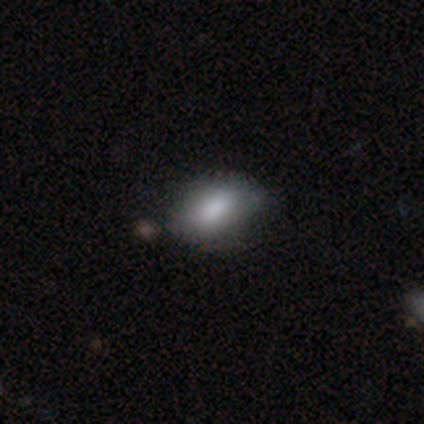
smooth-or-featured: smooth: 100% | featured or disk: 0% | star or artifact: 0%
  how-rounded: in between: 100% | round: 0% | cigar-shaped: 0%
  merging: none: 75% | minor disturbance: 25% | major disturbance: 0% | merger: 0%